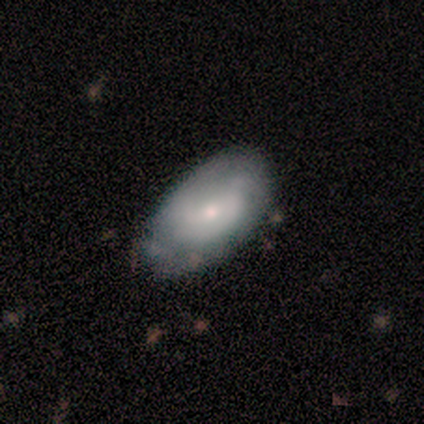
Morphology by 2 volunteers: smooth 50% (tied), featured or disk 50% (tied), star or artifact 0%. Down the decision tree: how rounded — in between (100%); merging — none (100%).